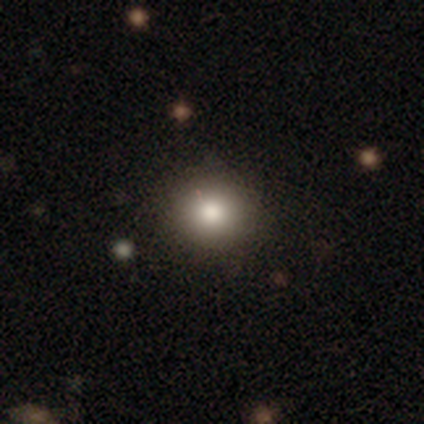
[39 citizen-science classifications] This appears to be a smooth galaxy with no disk features (79%) that is round (84%). Merging: none (74%).